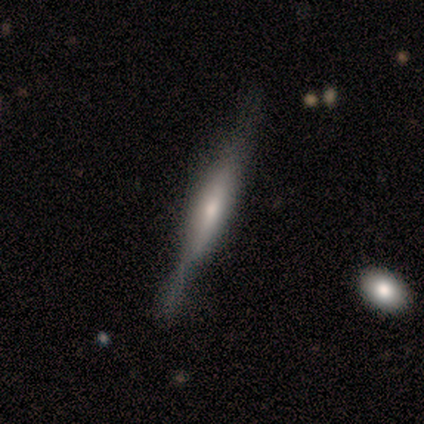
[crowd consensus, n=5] A smooth galaxy with no disk features (60%) that is cigar-shaped (100%).

Vote fractions:
- Smooth or featured? smooth: 60% / featured or disk: 40% / star or artifact: 0%
- How rounded? cigar-shaped: 100% / round: 0% / in between: 0%
- Merging? none: 60% / minor disturbance: 20% / major disturbance: 20% / merger: 0%